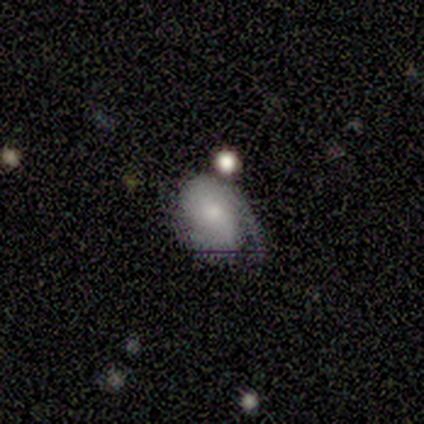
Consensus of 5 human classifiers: Morphology: type=smooth (60%); roundness=round (67%); merging=none (40%, tied with major disturbance).